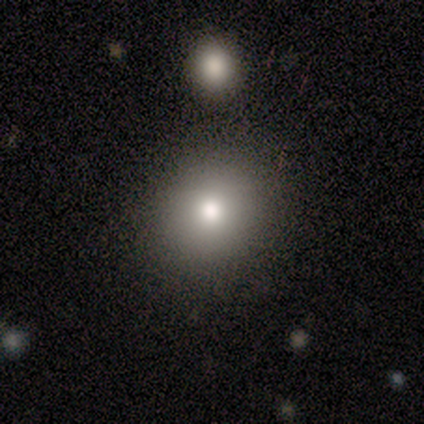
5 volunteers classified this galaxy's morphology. smooth_or_featured: smooth (p=0.80) [alt: star or artifact p=0.20]
how_rounded: round (p=0.75) [alt: in between p=0.25]
merging: none (p=0.75) [alt: minor disturbance p=0.25]